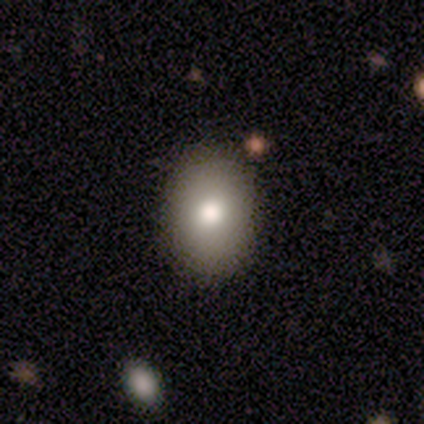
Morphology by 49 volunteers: Smooth or featured: smooth — 84% (featured or disk — 10%)
How rounded: in between — 80% (round — 20%)
Merging: none — 91% (minor disturbance — 9%)